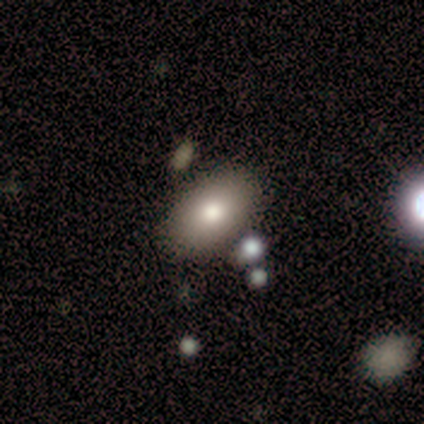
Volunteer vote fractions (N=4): smooth_or_featured: smooth (p=0.75) [alt: star or artifact p=0.25]
how_rounded: in between (p=1.00)
merging: none (p=0.33) [tied with: minor disturbance p=0.33, major disturbance p=0.33]